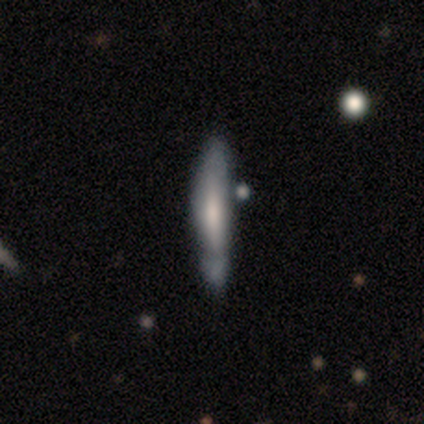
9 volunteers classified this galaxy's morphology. Smooth or featured?
  - featured or disk: 56% *
  - smooth: 33%
  - star or artifact: 11%
Edge-on disk?
  - yes: 100% *
  - no: 0%
Edge-on bulge?
  - none: 60% *
  - rounded: 40%
  - boxy: 0%
Merging?
  - none: 50% *
  - minor disturbance: 38%
  - merger: 12%
  - major disturbance: 0%